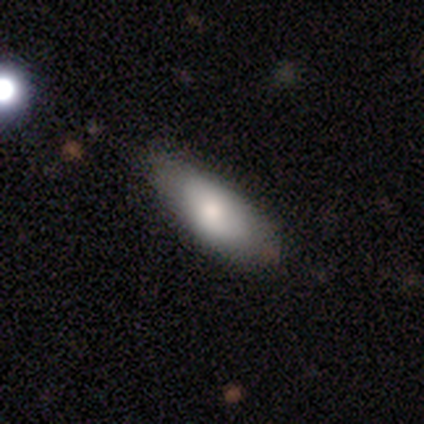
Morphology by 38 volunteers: A smooth galaxy with no disk features (79%) that is in between round and cigar-shaped (83%). Merging: none (69%).